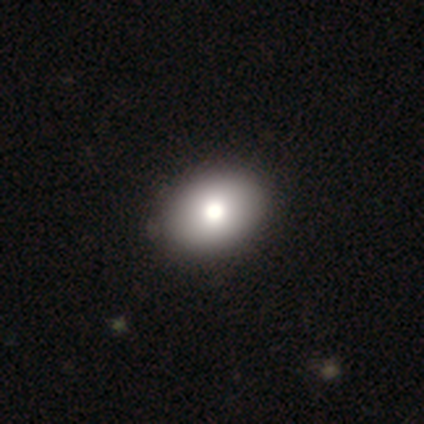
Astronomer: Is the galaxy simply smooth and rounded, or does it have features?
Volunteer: smooth — 85%.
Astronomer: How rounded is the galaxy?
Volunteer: in between — 73%.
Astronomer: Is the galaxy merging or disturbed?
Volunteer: none — 57%.